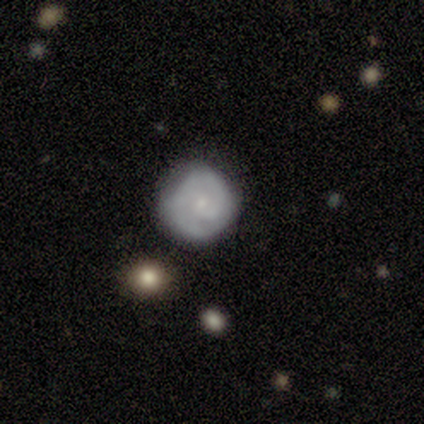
A featured or disk galaxy (100%) with no bar (100%), 2 (100%) tight (100%) spiral arms (100%) and a moderate central bulge (50%, tied with small). Merging: none (100%).